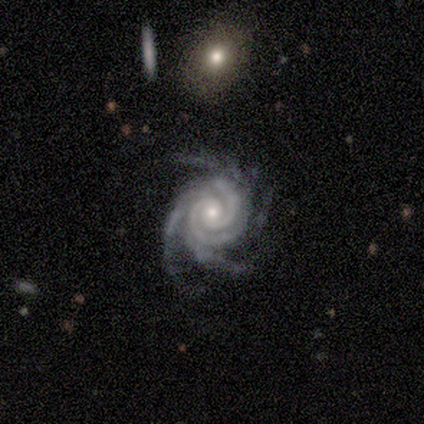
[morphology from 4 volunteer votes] Volunteers were most divided on "spiral arm count" (2-way tie): 3: 50%, 4: 50%, 1: 0%, 2: 0%, more than 4: 0%, can't tell: 0%; "bulge size" (2-way tie): moderate: 50%, small: 50%, dominant: 0%, large: 0%, none: 0%. More confident: smooth or featured — featured or disk (100%); edge-on disk — no (100%); spiral arms — yes (100%); spiral winding — tight (75%); merging — none (75%); bar — strong (50%).